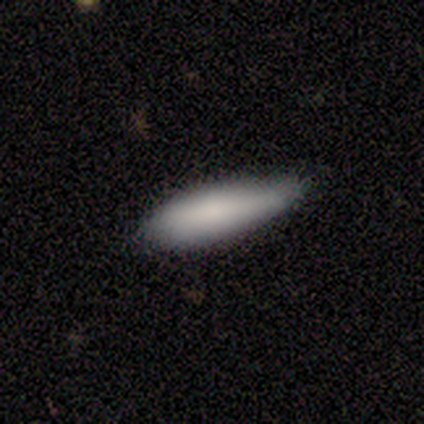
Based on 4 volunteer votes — Volunteers were most divided on "how rounded" (2-way tie): in between: 50%, cigar-shaped: 50%, round: 0%; "merging" (2-way tie): none: 50%, minor disturbance: 50%, major disturbance: 0%, merger: 0%. More confident: smooth or featured — smooth (100%).